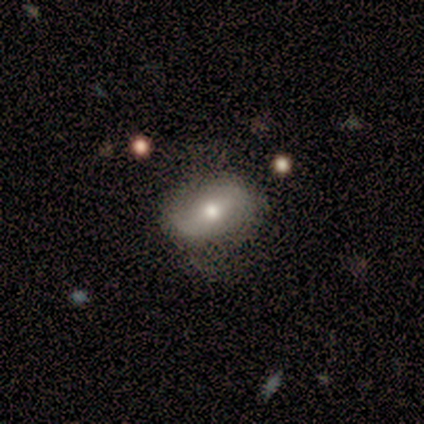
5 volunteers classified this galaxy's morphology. Smooth or featured: smooth — 60% (featured or disk — 20%)
How rounded: in between — 67% (round — 33%)
Merging: none — 75% (minor disturbance — 25%)